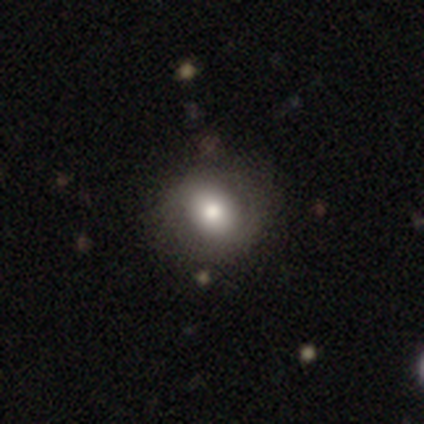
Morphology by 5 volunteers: Smooth or featured: smooth — 60% (featured or disk — 40%)
How rounded: round — 100%
Merging: none — 80% (minor disturbance — 20%)